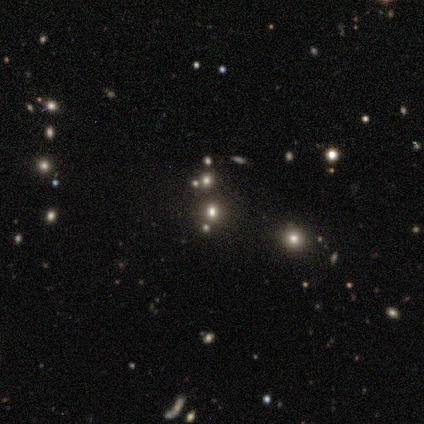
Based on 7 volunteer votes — A smooth galaxy with no disk features (57%) that is round (75%).

Vote fractions:
- Smooth or featured? smooth: 57% / star or artifact: 43% / featured or disk: 0%
- How rounded? round: 75% / in between: 25% / cigar-shaped: 0%
- Merging? minor disturbance: 50% / none: 25% / merger: 25% / major disturbance: 0%